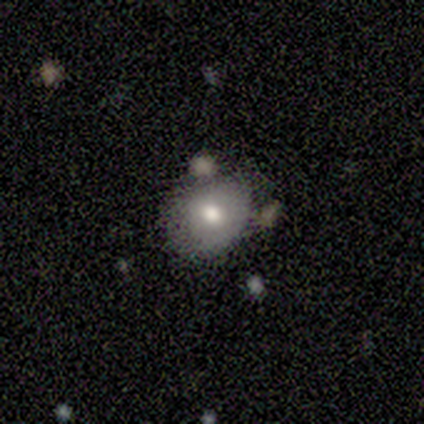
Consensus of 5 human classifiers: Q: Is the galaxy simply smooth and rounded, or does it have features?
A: smooth — 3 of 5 (60%).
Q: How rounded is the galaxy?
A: round — 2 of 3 (67%).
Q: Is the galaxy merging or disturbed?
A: none — 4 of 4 (100%).